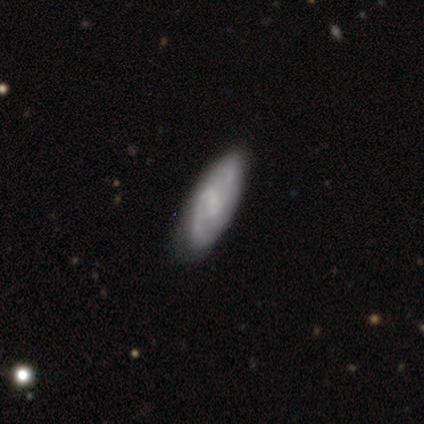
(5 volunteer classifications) Smooth or featured? featured or disk (60%)
Edge-on disk? no (100%)
Bar? weak (67%)
Spiral arms? yes (100%)
Spiral winding? medium (67%)
Spiral arm count? 2 (100%)
Bulge size? none (67%)
Merging? none (75%)